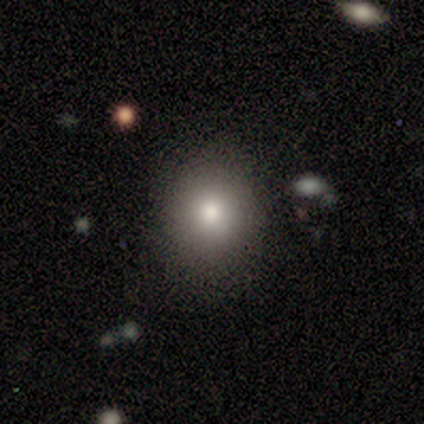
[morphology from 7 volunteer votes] Q: Smooth or featured?
A: smooth (71%); runner-up: featured or disk (14%)
Q: How rounded?
A: round (100%)
Q: Merging?
A: none (100%)